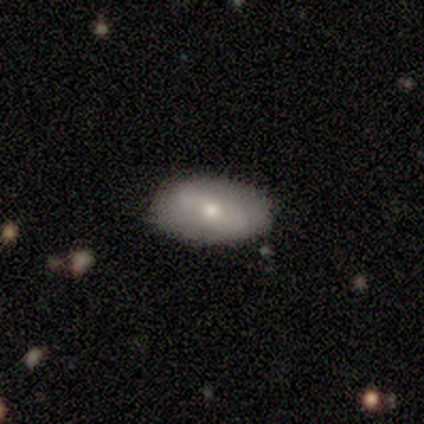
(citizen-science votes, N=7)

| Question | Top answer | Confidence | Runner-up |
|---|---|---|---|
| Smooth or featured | smooth | 57% | featured or disk (29%) |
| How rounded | in between | 100% | — |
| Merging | none | 83% | minor disturbance (17%) |